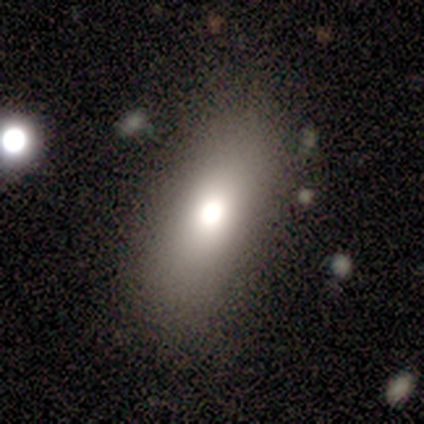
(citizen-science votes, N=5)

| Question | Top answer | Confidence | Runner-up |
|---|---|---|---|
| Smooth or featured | smooth | 60% | featured or disk (20%) |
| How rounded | in between | 100% | — |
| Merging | none | 100% | — |